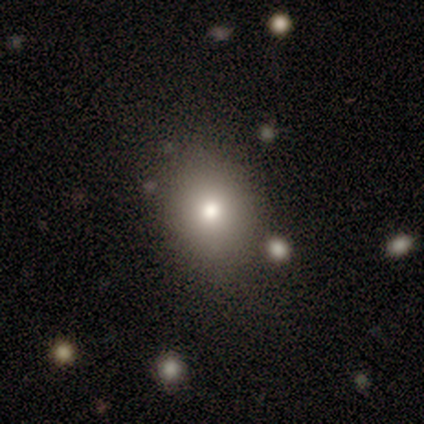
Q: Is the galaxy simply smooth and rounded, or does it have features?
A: smooth — 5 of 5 (100%).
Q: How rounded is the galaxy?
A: in between — 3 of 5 (60%).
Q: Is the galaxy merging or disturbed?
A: none — 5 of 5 (100%).